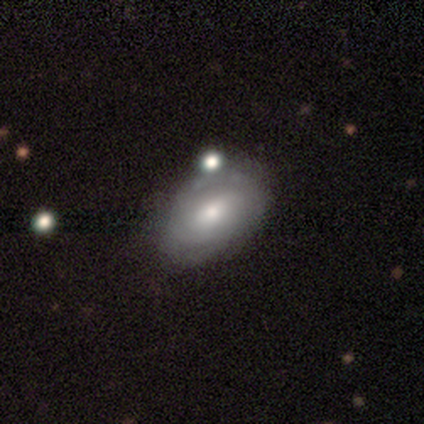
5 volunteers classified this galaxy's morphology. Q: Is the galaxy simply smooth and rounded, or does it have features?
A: smooth — 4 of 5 (80%).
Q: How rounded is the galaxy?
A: in between — 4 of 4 (100%).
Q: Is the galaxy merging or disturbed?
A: none — 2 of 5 (40%, tied with minor disturbance).